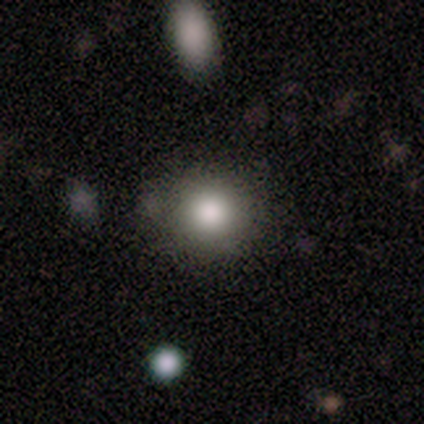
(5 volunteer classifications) Smooth or featured? smooth (60%)
How rounded? round (67%)
Merging? none (50%)